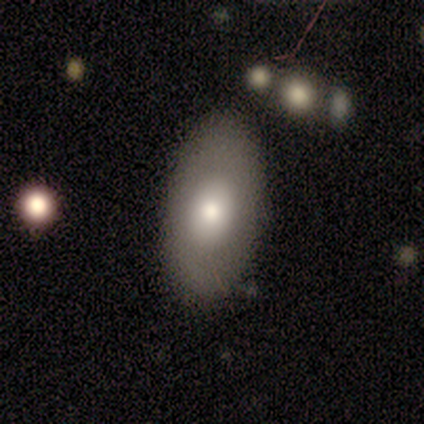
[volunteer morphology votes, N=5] A smooth galaxy with no disk features (80%) that is in between round and cigar-shaped (100%).

Vote fractions:
- Smooth or featured? smooth: 80% / featured or disk: 20% / star or artifact: 0%
- How rounded? in between: 100% / round: 0% / cigar-shaped: 0%
- Merging? none: 100% / minor disturbance: 0% / major disturbance: 0% / merger: 0%